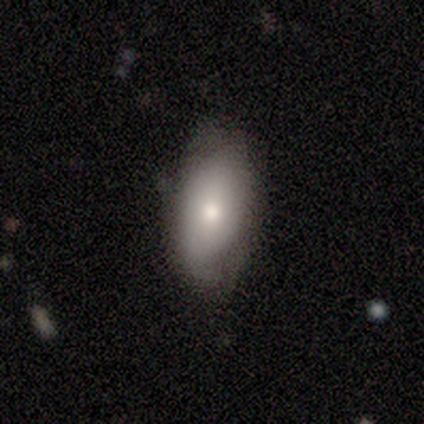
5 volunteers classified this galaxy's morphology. Volunteers were most divided on "merging" (2-way tie): none: 50%, minor disturbance: 50%, major disturbance: 0%, merger: 0%. More confident: how rounded — in between (100%); smooth or featured — smooth (60%).